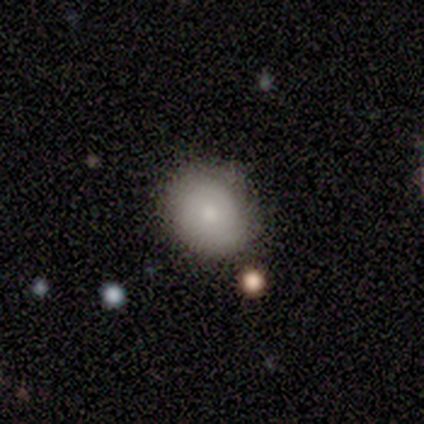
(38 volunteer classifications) Morphology: type=smooth (71%); roundness=round (78%); merging=none (79%).